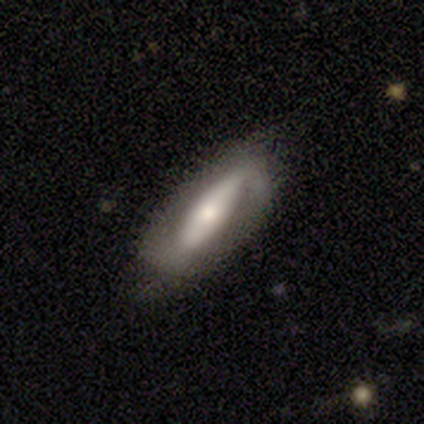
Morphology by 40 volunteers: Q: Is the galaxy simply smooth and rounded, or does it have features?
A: featured or disk — 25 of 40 (62%).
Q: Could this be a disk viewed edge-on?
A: no — 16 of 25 (64%).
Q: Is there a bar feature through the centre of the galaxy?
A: strong — 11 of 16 (69%).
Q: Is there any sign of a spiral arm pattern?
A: yes — 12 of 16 (75%).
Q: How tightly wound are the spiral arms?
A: loose — 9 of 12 (75%).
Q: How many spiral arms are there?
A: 2 — 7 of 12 (58%).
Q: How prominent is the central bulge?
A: moderate — 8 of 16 (50%).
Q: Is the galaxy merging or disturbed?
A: none — 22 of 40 (55%).